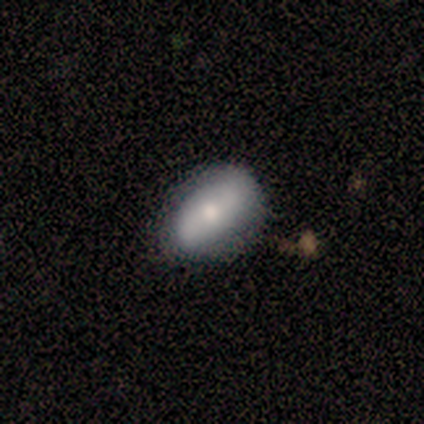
Overall: smooth (80%). How rounded: in between (75%). Merging: none (80%).